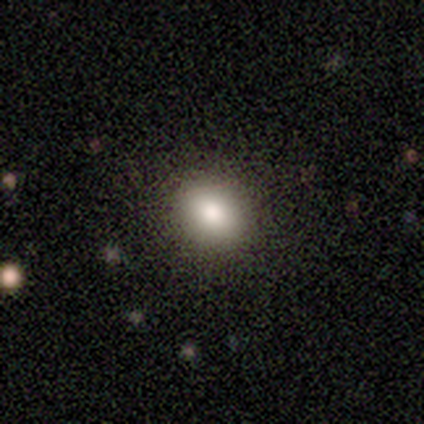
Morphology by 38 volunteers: Smooth or featured? smooth (82%)
How rounded? round (68%)
Merging? none (97%)